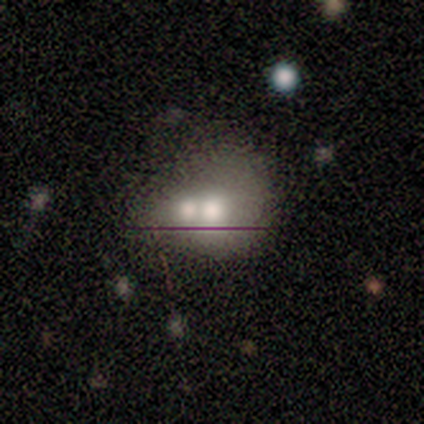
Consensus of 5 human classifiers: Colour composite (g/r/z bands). It shows a smooth galaxy with no disk features (60%) that is in between round and cigar-shaped (67%). Merging: minor disturbance (40%, tied with merger).